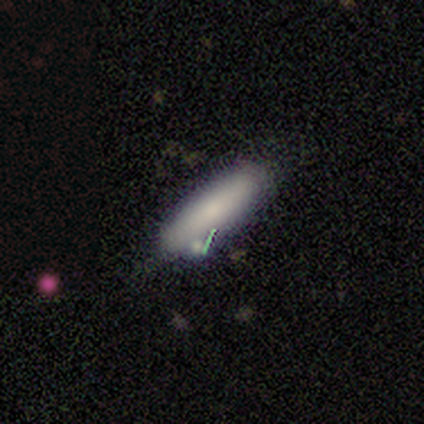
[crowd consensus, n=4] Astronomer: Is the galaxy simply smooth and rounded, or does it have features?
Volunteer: smooth — 100%.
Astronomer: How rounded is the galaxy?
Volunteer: in between — 50%, tied with cigar-shaped at 50%.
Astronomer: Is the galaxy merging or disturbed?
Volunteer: none — 75%.